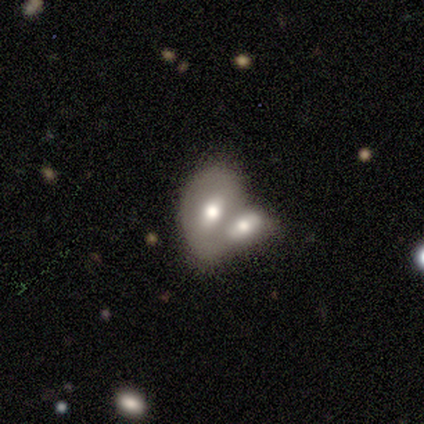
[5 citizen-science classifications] A featured or disk galaxy (80%) with a weak bar (67%), no spiral arms (100%) and a moderate central bulge (67%).

Vote fractions:
- Smooth or featured? featured or disk: 80% / smooth: 20% / star or artifact: 0%
- Edge-on disk? no: 75% / yes: 25%
- Bar? weak: 67% / no: 33% / strong: 0%
- Spiral arms? no: 100% / yes: 0%
- Bulge size? moderate: 67% / none: 33% / dominant: 0% / large: 0% / small: 0%
- Merging? merger: 80% / none: 20% / minor disturbance: 0% / major disturbance: 0%